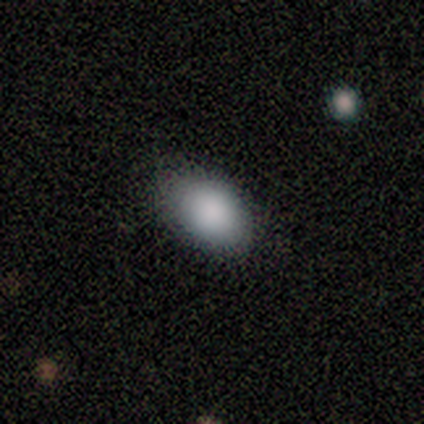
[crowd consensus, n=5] smooth_or_featured: smooth (p=1.00)
how_rounded: in between (p=0.80) [alt: round p=0.20]
merging: none (p=0.80) [alt: minor disturbance p=0.20]